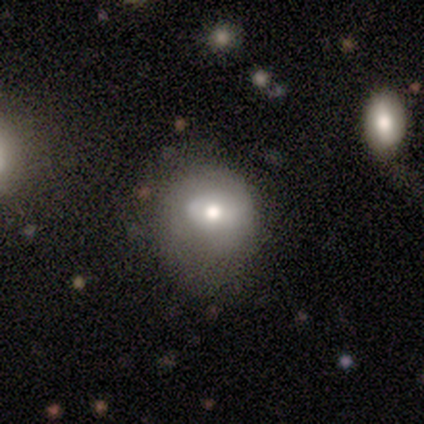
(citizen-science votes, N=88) A smooth galaxy with no disk features (61%) that is round (52%). Merging: none (58%).